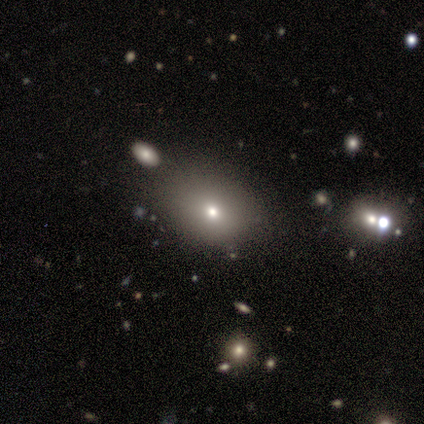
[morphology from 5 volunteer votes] Q: Smooth or featured?
A: smooth (100%)
Q: How rounded?
A: in between (80%); runner-up: round (20%)
Q: Merging?
A: none (80%); runner-up: minor disturbance (20%)